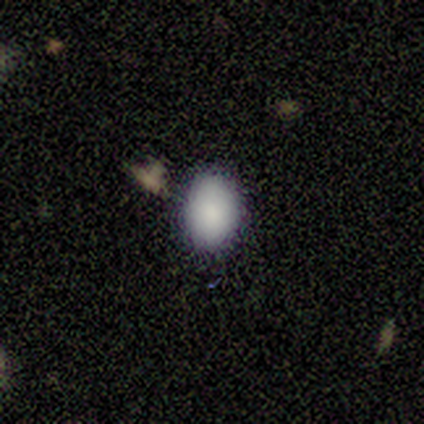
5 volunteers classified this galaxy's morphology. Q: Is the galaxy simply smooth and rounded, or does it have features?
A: smooth — 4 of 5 (80%).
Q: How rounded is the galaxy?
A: in between — 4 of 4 (100%).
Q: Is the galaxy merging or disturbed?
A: none — 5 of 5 (100%).